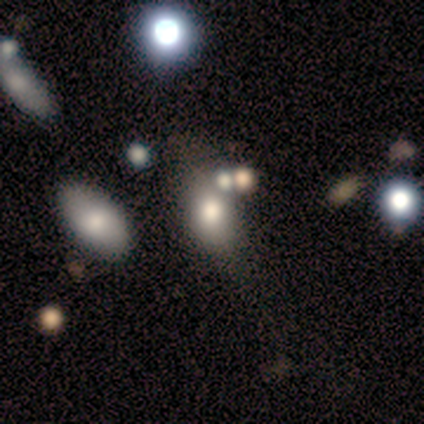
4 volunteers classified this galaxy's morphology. A smooth galaxy with no disk features (75%) that is in between round and cigar-shaped (100%).

Vote fractions:
- Smooth or featured? smooth: 75% / featured or disk: 25% / star or artifact: 0%
- How rounded? in between: 100% / round: 0% / cigar-shaped: 0%
- Merging? none: 75% / minor disturbance: 25% / major disturbance: 0% / merger: 0%